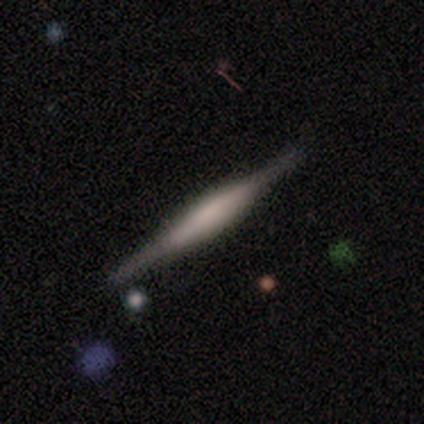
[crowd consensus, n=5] A featured or disk galaxy (80%) viewed edge-on (100%) with a boxy central bulge (50%).

Vote fractions:
- Smooth or featured? featured or disk: 80% / smooth: 20% / star or artifact: 0%
- Edge-on disk? yes: 100% / no: 0%
- Edge-on bulge? boxy: 50% / none: 25% / rounded: 25%
- Merging? none: 100% / minor disturbance: 0% / major disturbance: 0% / merger: 0%